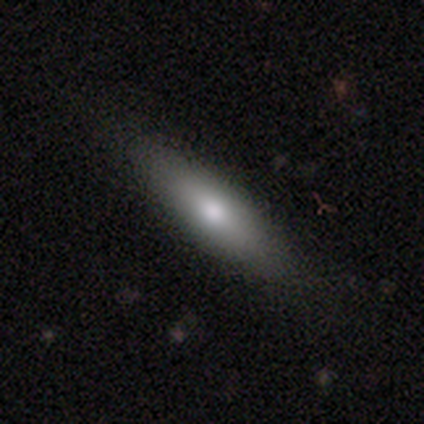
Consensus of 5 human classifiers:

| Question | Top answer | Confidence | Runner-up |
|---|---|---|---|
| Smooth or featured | smooth | 100% | — |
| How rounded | in between | 80% | cigar-shaped (20%) |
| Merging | none | 80% | minor disturbance (20%) |